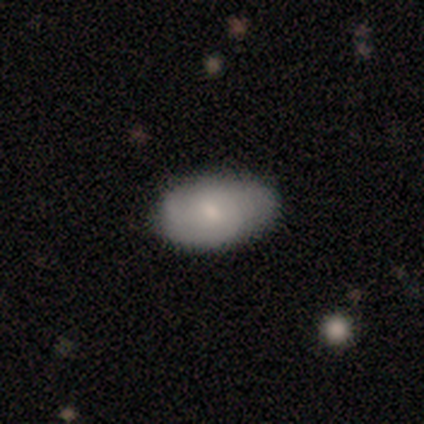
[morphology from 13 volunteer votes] Overall: smooth (62%; featured or disk 31%). How rounded: in between (100%). Merging: none (92%).